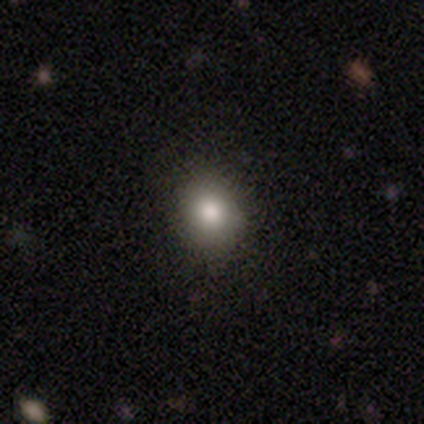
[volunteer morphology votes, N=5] Volunteers were most divided on "smooth or featured": smooth: 60%, star or artifact: 40%, featured or disk: 0%. More confident: how rounded — round (100%); merging — none (100%).